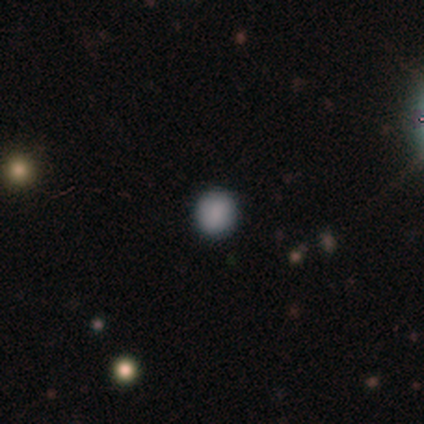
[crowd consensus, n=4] Q: Smooth or featured?
A: smooth (50%); tied with: star or artifact (50%)
Q: How rounded?
A: round (100%)
Q: Merging?
A: none (100%)